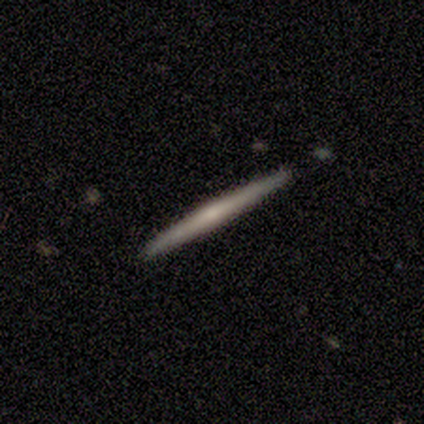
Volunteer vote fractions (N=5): Q: Smooth or featured?
A: featured or disk (100%)
Q: Edge-on disk?
A: yes (100%)
Q: Edge-on bulge?
A: none (40%); tied with: rounded (40%)
Q: Merging?
A: none (80%); runner-up: minor disturbance (20%)